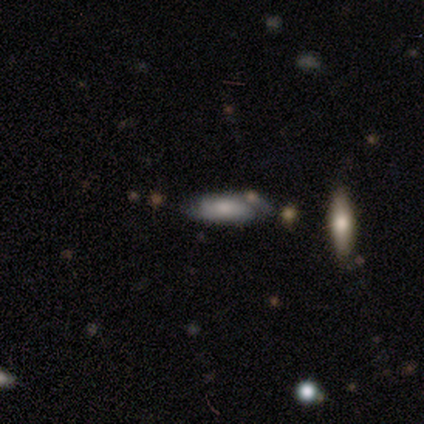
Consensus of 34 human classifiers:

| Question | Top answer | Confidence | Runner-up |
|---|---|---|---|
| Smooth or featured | featured or disk | 53% | smooth (32%) |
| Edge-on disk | no | 78% | yes (22%) |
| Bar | no | 79% | strong (14%) |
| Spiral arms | yes | 86% | no (14%) |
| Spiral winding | tight | 50% | medium (33%) |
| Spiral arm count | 2 | 75% | can't tell (25%) |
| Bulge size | moderate | 57% | small (21%) |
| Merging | none | 66% | minor disturbance (17%) |